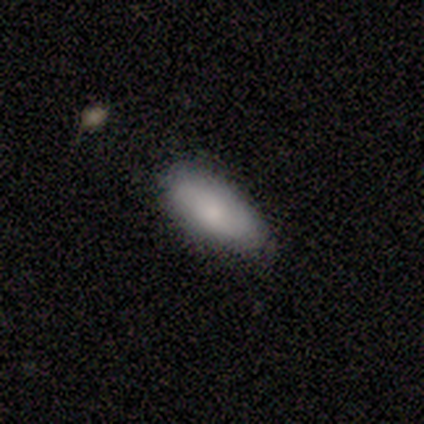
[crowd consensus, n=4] A smooth galaxy with no disk features (50%) that is in between round and cigar-shaped (100%).

Vote fractions:
- Smooth or featured? smooth: 50% / featured or disk: 25% / star or artifact: 25%
- How rounded? in between: 100% / round: 0% / cigar-shaped: 0%
- Merging? minor disturbance: 67% / none: 33% / major disturbance: 0% / merger: 0%